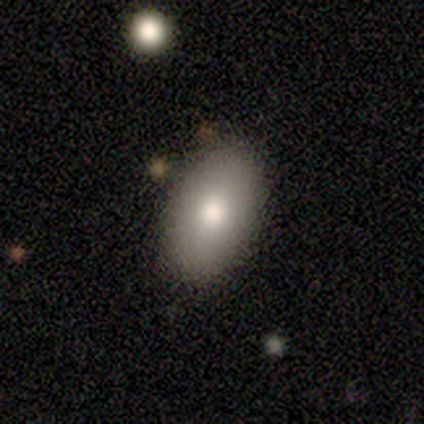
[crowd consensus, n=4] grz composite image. It shows a smooth galaxy with no disk features (75%) that is in between round and cigar-shaped (100%). Merging: none (75%).